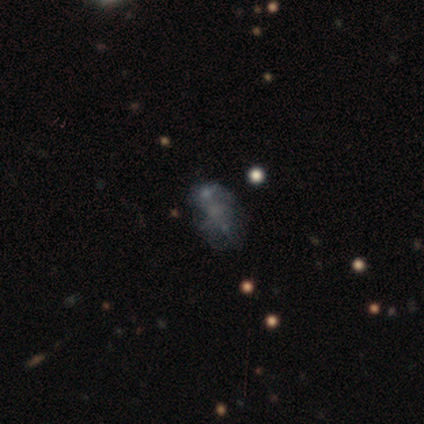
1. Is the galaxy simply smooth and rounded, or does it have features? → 40% smooth (tied), 40% featured or disk (tied), 20% star or artifact.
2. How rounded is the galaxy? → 100% in between, 0% round, 0% cigar-shaped.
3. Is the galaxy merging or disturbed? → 50% minor disturbance, 25% none, 25% major disturbance, 0% merger.